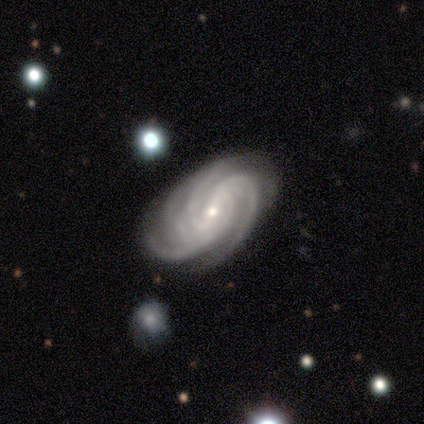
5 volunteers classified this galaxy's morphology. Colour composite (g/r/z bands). It shows a featured or disk galaxy (100%) with no bar (80%), 3 (60%) tight (60%) spiral arms (100%) and a small central bulge (60%). Merging: none (60%).